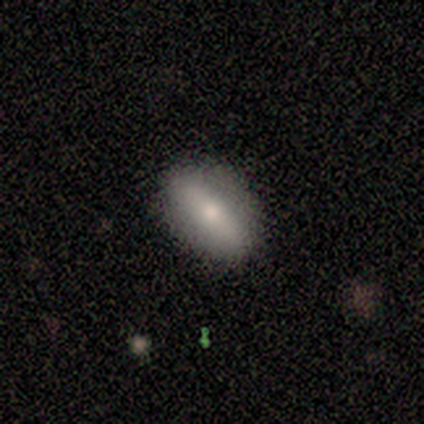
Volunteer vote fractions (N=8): smooth 62%, featured or disk 38%, star or artifact 0%. Down the decision tree: how rounded — in between (100%); merging — none (75%).